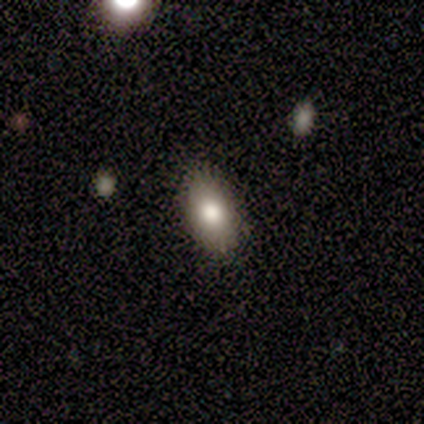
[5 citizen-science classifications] Smooth or featured?
  - smooth: 80% *
  - featured or disk: 20%
  - star or artifact: 0%
How rounded?
  - in between: 75% *
  - cigar-shaped: 25%
  - round: 0%
Merging?
  - none: 80% *
  - minor disturbance: 20%
  - major disturbance: 0%
  - merger: 0%